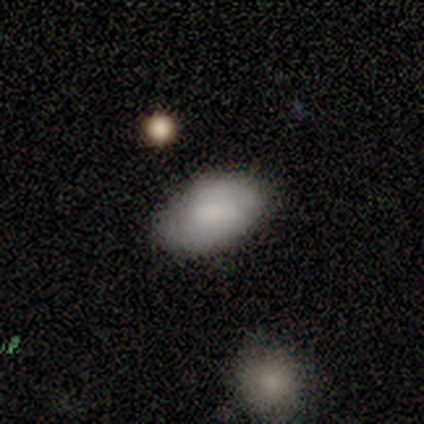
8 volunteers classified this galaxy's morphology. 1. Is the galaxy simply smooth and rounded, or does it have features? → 75% smooth, 25% featured or disk, 0% star or artifact.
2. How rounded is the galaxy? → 100% in between, 0% round, 0% cigar-shaped.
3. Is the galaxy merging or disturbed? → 75% none, 25% minor disturbance, 0% major disturbance, 0% merger.